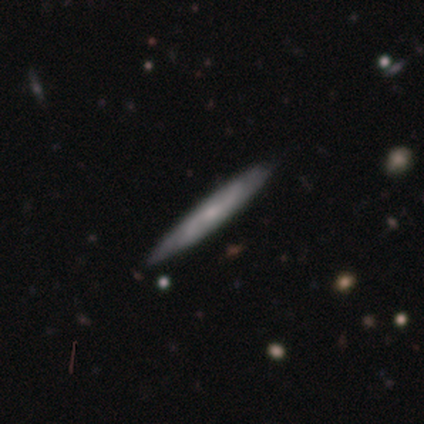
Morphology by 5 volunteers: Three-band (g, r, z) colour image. It shows a featured or disk galaxy (60%) viewed edge-on (67%) with no central bulge (100%). Merging: none (80%).